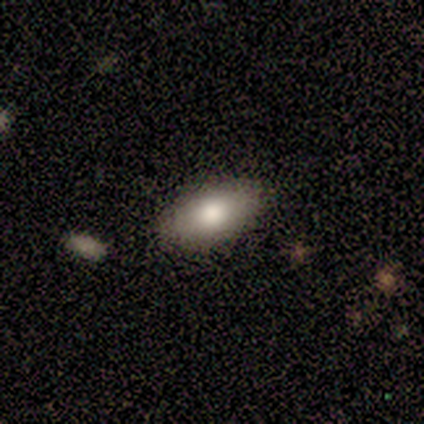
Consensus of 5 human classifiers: smooth-or-featured: smooth: 80% | featured or disk: 20% | star or artifact: 0%
  how-rounded: in between: 100% | round: 0% | cigar-shaped: 0%
  merging: none: 80% | merger: 20% | minor disturbance: 0% | major disturbance: 0%